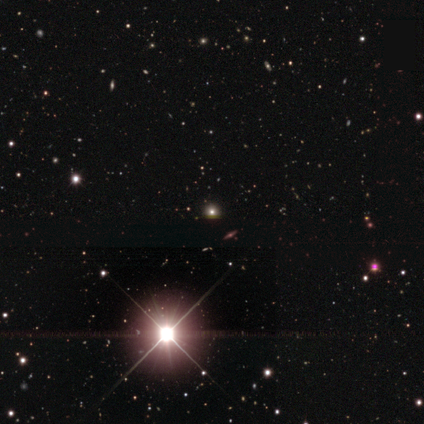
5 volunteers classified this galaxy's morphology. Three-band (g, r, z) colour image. It shows a star or artifact, not a galaxy (60%).